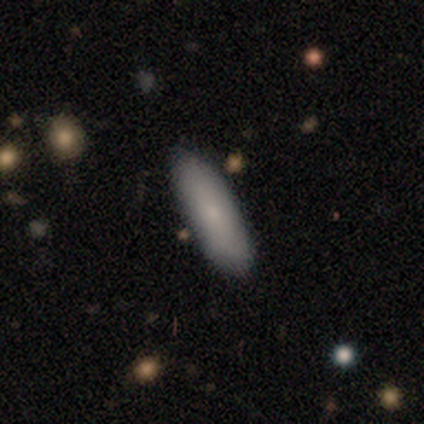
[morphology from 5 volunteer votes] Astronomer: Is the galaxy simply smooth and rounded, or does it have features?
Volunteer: smooth — 60% (runner-up: featured or disk, 40%).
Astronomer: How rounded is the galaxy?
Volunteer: cigar-shaped — 67%.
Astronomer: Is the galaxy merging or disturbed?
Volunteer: none — 100%.